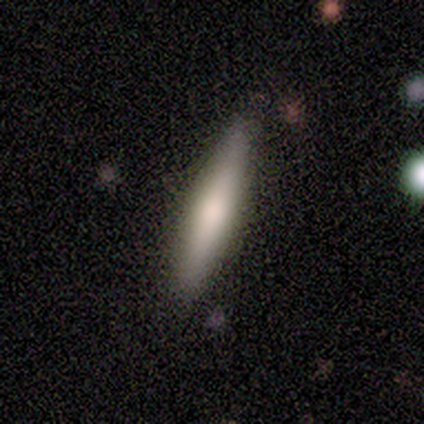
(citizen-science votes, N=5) smooth 60%, featured or disk 20%, star or artifact 20%. Down the decision tree: how rounded — cigar-shaped (100%); merging — none (100%).